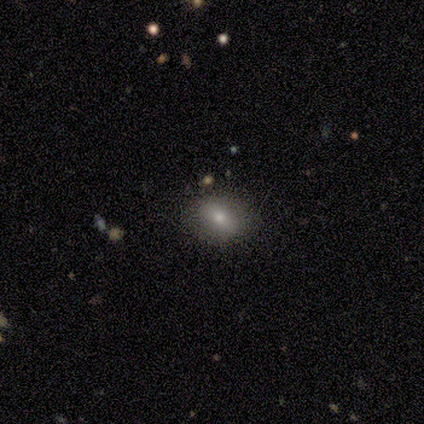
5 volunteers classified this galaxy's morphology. A smooth galaxy with no disk features (80%) that is in between round and cigar-shaped (75%).

Vote fractions:
- Smooth or featured? smooth: 80% / featured or disk: 20% / star or artifact: 0%
- How rounded? in between: 75% / round: 25% / cigar-shaped: 0%
- Merging? none: 80% / minor disturbance: 20% / major disturbance: 0% / merger: 0%